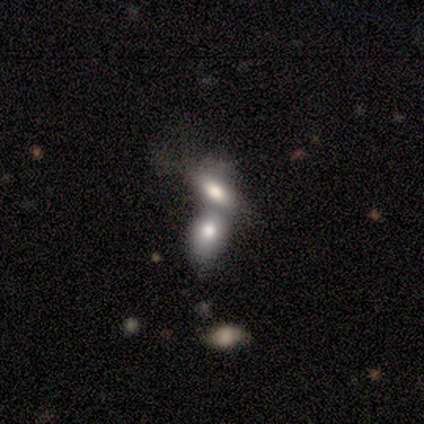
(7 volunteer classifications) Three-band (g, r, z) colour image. It shows a smooth galaxy with no disk features (86%) that is in between round and cigar-shaped (100%). Merging: merger (83%).